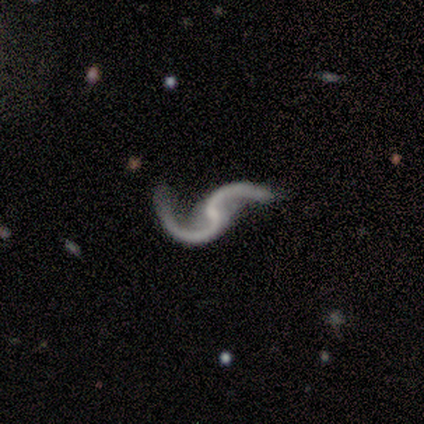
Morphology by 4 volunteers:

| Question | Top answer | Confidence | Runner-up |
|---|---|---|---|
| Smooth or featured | featured or disk | 100% | — |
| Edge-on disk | no | 100% | — |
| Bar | weak | 50% | tied: no (50%) |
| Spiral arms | yes | 100% | — |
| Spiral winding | loose | 100% | — |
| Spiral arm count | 2 | 100% | — |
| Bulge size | small | 50% | tied: none (50%) |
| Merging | none | 75% | minor disturbance (25%) |